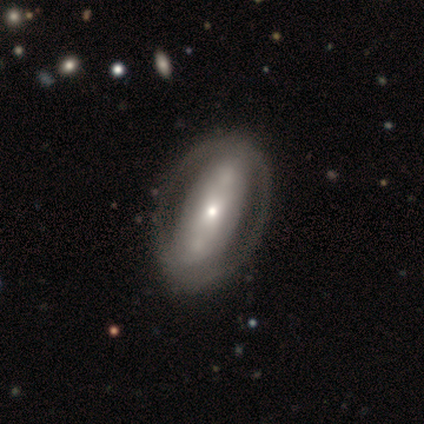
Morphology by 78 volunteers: Volunteers were most divided on "bulge size": small: 53%, moderate: 37%, large: 5%, dominant: 2%, none: 2%. More confident: edge-on disk — no (91%); spiral arms — no (74%); merging — none (61%); smooth or featured — featured or disk (60%); bar — no (58%).